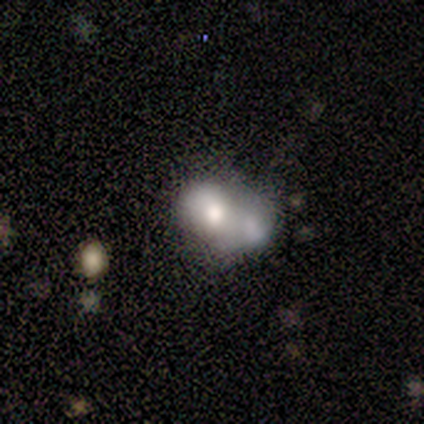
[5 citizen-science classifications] smooth_or_featured: smooth (p=0.80) [alt: star or artifact p=0.20]
how_rounded: round (p=0.50) [tied with: in between p=0.50]
merging: merger (p=0.75) [alt: major disturbance p=0.25]